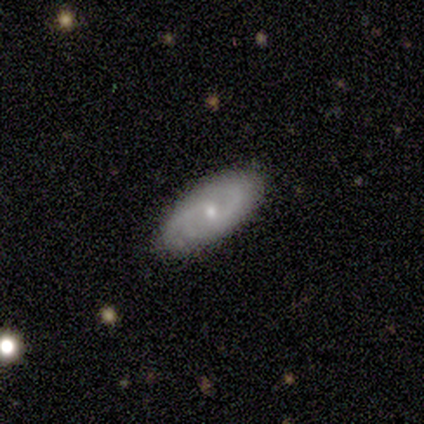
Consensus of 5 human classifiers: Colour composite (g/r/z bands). It shows a featured or disk galaxy (60%) with no bar (100%), 2 (100%) loose (100%) spiral arms (100%) and a small central bulge (100%). Merging: none (50%, tied with minor disturbance).